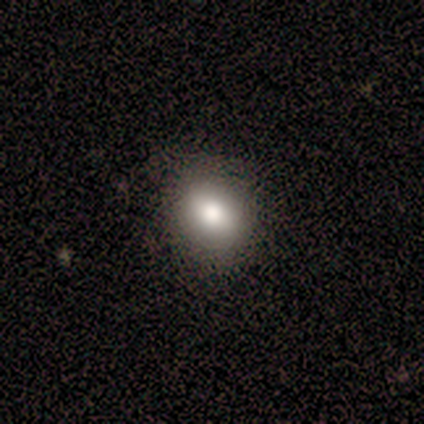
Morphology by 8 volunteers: This appears to be a smooth galaxy with no disk features (75%) that is in between round and cigar-shaped (83%). Merging: none (88%).